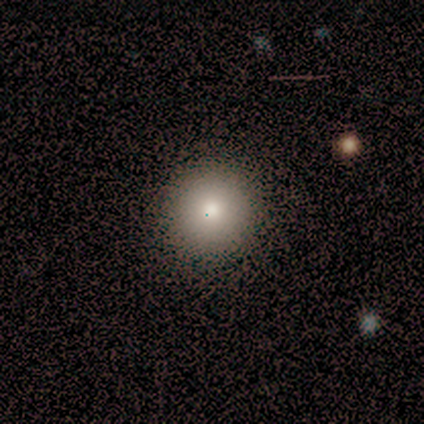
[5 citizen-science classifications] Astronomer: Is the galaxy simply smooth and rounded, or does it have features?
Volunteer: smooth — 80%.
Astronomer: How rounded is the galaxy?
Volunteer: round — 75%.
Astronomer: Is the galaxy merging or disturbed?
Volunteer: none — 75%.